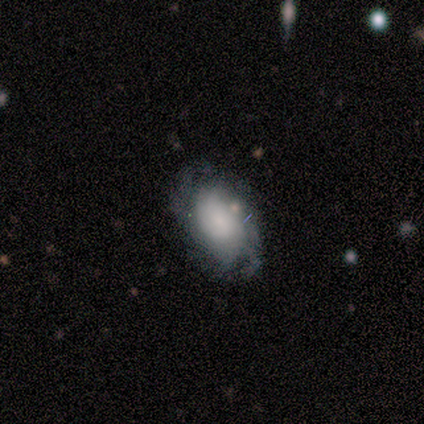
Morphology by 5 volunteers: Overall: smooth (60%; featured or disk 40%). How rounded: in between (100%). Merging: none (60%; minor disturbance 20%).